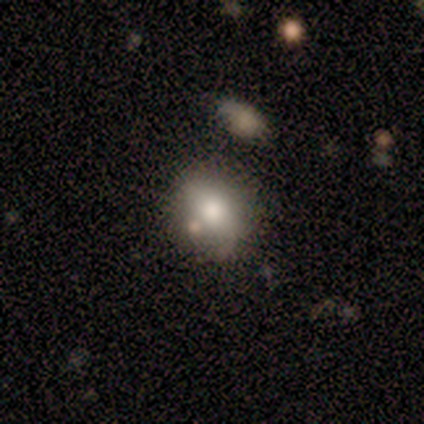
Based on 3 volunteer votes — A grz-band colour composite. It shows a smooth galaxy with no disk features (67%) that is round (50%, tied with in between). Merging: merger (67%).